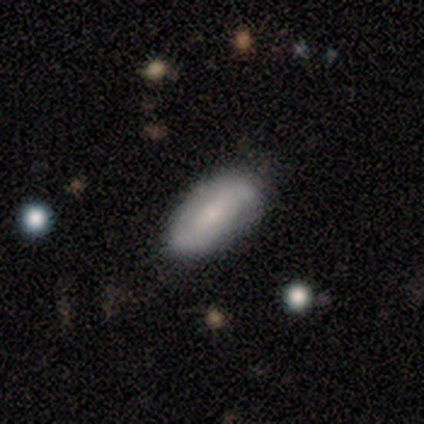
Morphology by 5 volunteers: smooth-or-featured: smooth: 80% | featured or disk: 20% | star or artifact: 0%
  how-rounded: in between: 100% | round: 0% | cigar-shaped: 0%
  merging: none: 60% | minor disturbance: 40% | major disturbance: 0% | merger: 0%